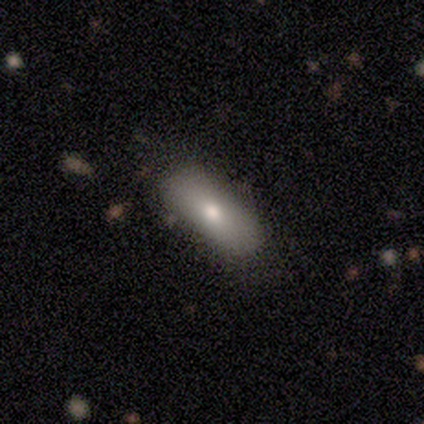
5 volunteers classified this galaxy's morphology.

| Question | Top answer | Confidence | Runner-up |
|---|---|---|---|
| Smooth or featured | smooth | 40% | tied: featured or disk (40%) |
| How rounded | in between | 100% | — |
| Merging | none | 100% | — |